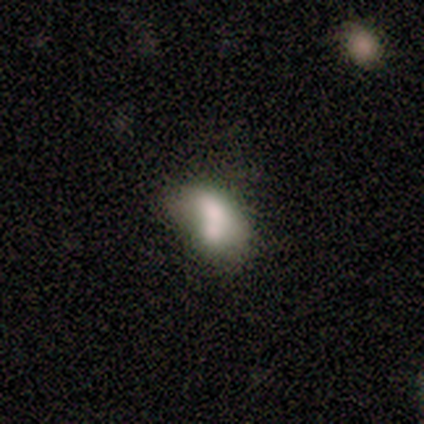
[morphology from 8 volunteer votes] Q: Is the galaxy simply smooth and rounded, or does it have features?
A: smooth — 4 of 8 (50%).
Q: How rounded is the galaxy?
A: in between — 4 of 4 (100%).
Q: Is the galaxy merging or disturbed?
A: merger — 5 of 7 (71%).